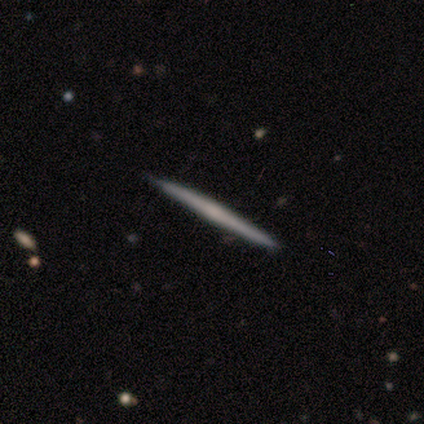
Smooth or featured: featured or disk — 60% (smooth — 30%)
Edge-on disk: yes — 100%
Edge-on bulge: none — 50% (tied with rounded — 50%)
Merging: none — 89% (minor disturbance — 11%)